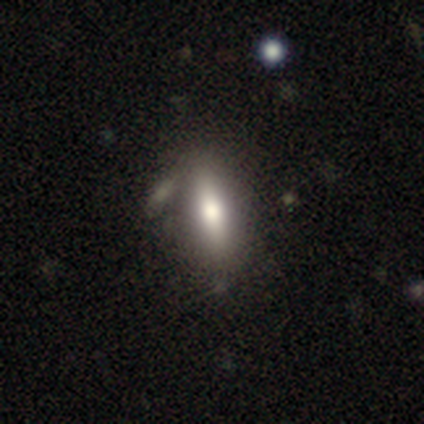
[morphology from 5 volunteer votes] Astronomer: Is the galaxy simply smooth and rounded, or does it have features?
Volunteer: smooth — 80%.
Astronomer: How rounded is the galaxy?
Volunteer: in between — 50%, tied with cigar-shaped at 50%.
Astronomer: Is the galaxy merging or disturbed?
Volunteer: none — 40%, tied with minor disturbance at 40%.